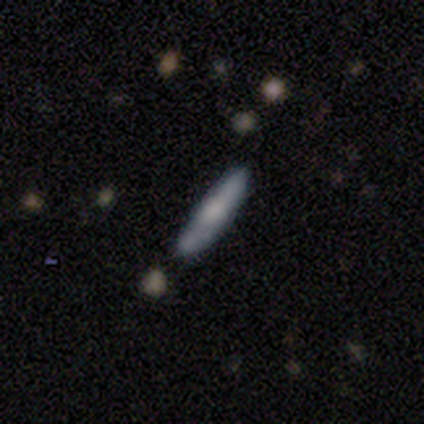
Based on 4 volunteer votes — featured or disk 50%, smooth 25%, star or artifact 25%. Down the decision tree: edge-on disk — yes (50%, tied with no); edge-on bulge — rounded (100%); merging — none (67%).